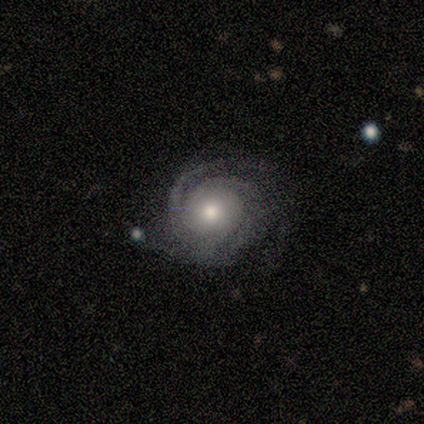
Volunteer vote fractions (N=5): smooth-or-featured: featured or disk: 100% | smooth: 0% | star or artifact: 0%
  disk-edge-on: no: 100% | yes: 0%
    bar: strong: 40% (tied) | weak: 40% (tied) | no: 20%
    has-spiral-arms: yes: 100% | no: 0%
      spiral-winding: tight: 80% | loose: 20% | medium: 0%
      spiral-arm-count: 3: 60% | 2: 20% | can't tell: 20% | 1: 0% | 4: 0% | more than 4: 0%
    bulge-size: moderate: 40% (tied) | small: 40% (tied) | large: 20% | dominant: 0% | none: 0%
  merging: none: 80% | minor disturbance: 20% | major disturbance: 0% | merger: 0%